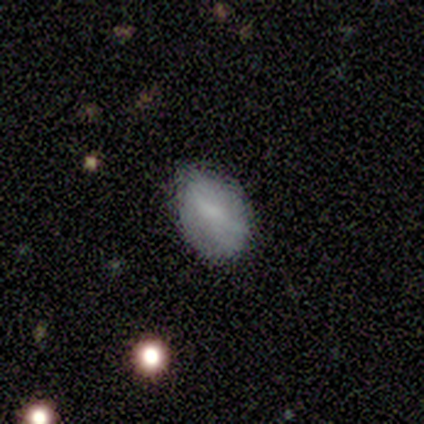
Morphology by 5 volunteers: Smooth or featured: smooth — 80% (featured or disk — 20%)
How rounded: in between — 100%
Merging: minor disturbance — 60% (none — 40%)